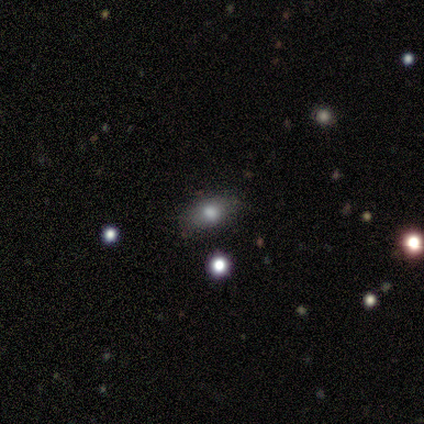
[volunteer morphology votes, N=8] A smooth galaxy with no disk features (62%) that is in between round and cigar-shaped (100%). Merging: none (60%).